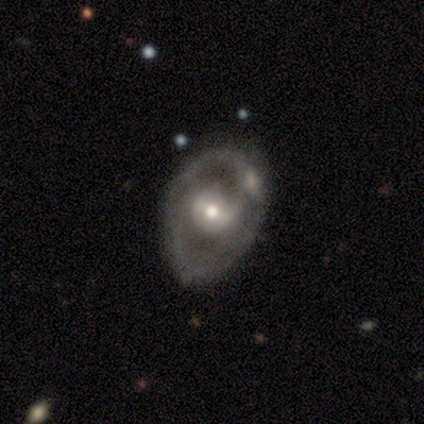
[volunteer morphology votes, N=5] Smooth or featured? featured or disk (60%)
Edge-on disk? no (100%)
Bar? no (67%)
Spiral arms? no (100%)
Bulge size? moderate (67%)
Merging? none (80%)